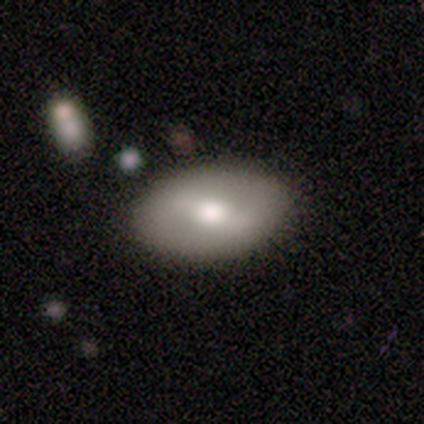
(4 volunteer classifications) Overall: smooth (75%). How rounded: in between (100%). Merging: none (100%).